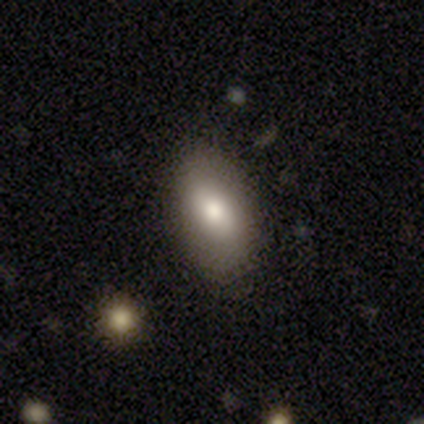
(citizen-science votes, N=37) smooth 65%, featured or disk 27%, star or artifact 8%. Down the decision tree: how rounded — in between (96%); merging — none (91%).